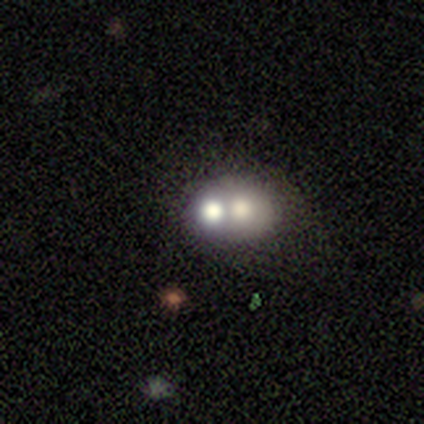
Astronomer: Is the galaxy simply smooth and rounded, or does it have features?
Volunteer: smooth — 60% (runner-up: featured or disk, 40%).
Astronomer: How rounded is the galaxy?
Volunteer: round — 67%.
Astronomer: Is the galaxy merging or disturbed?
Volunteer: merger — 60% (runner-up: none, 40%).